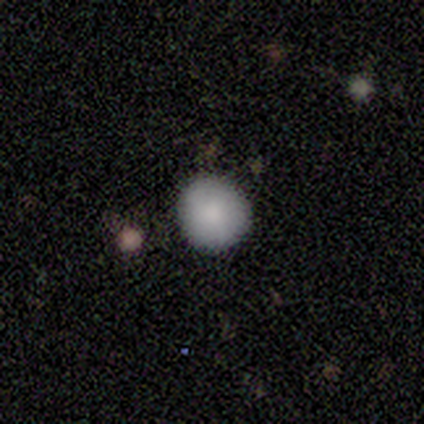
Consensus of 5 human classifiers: Smooth or featured? 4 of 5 (80%) said smooth. How rounded? 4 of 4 (100%) said round. Merging? 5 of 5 (100%) said none.